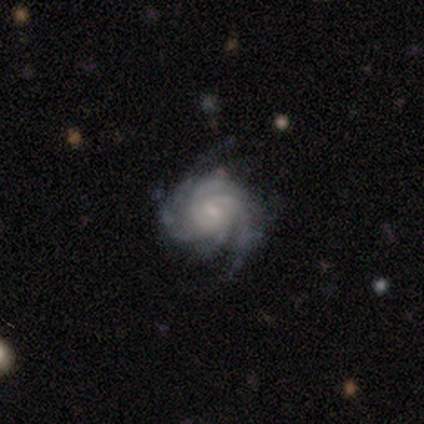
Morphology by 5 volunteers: smooth-or-featured: featured or disk: 80% | star or artifact: 20% | smooth: 0%
  disk-edge-on: no: 100% | yes: 0%
    bar: weak: 50% (tied) | no: 50% (tied) | strong: 0%
    has-spiral-arms: yes: 100% | no: 0%
      spiral-winding: tight: 100% | medium: 0% | loose: 0%
      spiral-arm-count: 3: 50% (tied) | 4: 50% (tied) | 1: 0% | 2: 0% | more than 4: 0% | can't tell: 0%
    bulge-size: small: 100% | dominant: 0% | large: 0% | moderate: 0% | none: 0%
  merging: none: 75% | minor disturbance: 25% | major disturbance: 0% | merger: 0%